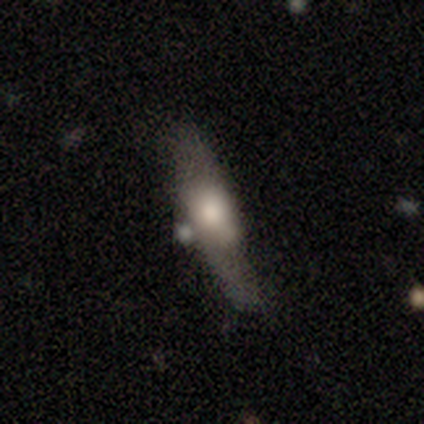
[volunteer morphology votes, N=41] type=smooth (54%); roundness=cigar-shaped (64%); merging=none (50%).